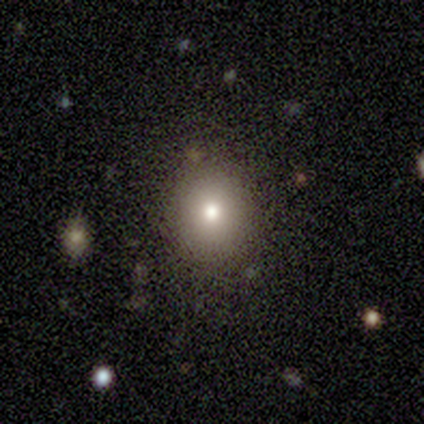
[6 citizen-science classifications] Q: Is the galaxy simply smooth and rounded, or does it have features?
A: smooth — 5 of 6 (83%).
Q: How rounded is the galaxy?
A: round — 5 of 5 (100%).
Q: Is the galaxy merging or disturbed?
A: none — 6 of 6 (100%).